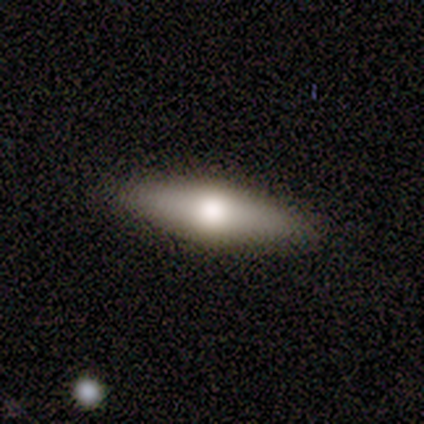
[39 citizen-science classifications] This is likely a smooth galaxy (67%). How rounded: possibly in between (58%). Merging: clearly none (86%).